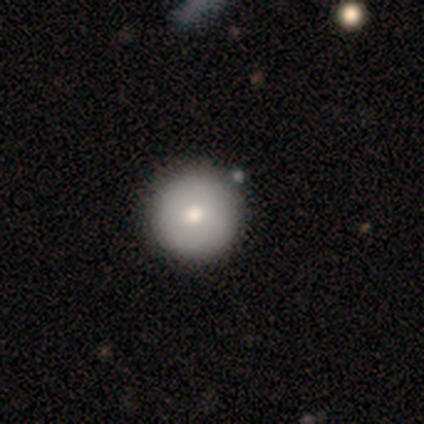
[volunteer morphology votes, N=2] Q: Smooth or featured?
A: smooth (100%)
Q: How rounded?
A: round (100%)
Q: Merging?
A: none (100%)